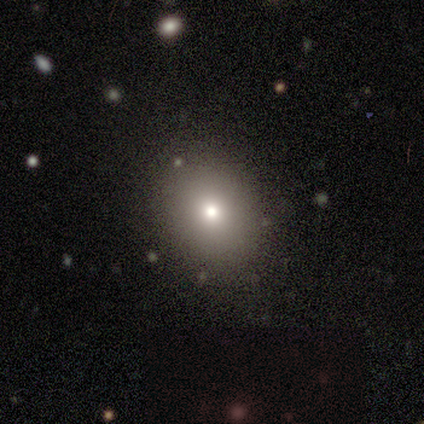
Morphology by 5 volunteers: Smooth or featured? 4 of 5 (80%) said smooth. How rounded? 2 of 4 (50%, tied with in between) said round. Merging? 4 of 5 (80%) said none.